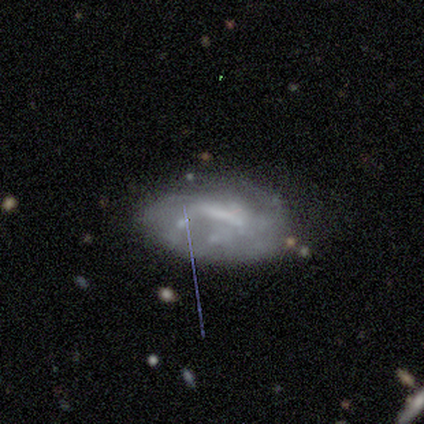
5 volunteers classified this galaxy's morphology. A featured or disk galaxy (60%) with a strong bar (67%), no spiral arms (67%) and no central bulge (67%). Merging: none (25%, tied with minor disturbance, major disturbance and merger).